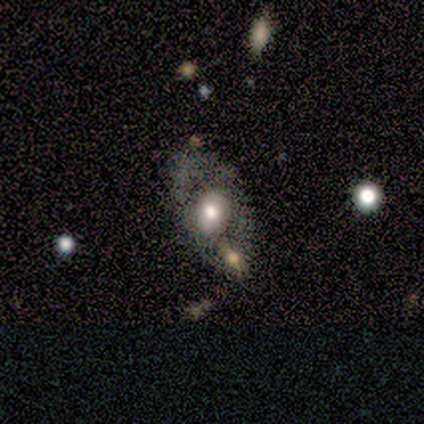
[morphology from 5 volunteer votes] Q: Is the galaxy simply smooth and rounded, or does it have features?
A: featured or disk — 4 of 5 (80%).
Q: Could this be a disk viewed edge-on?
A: no — 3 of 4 (75%).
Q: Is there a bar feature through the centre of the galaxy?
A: strong — 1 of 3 (33%, tied with weak and no).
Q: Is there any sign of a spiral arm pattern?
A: no — 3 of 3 (100%).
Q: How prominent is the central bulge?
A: large — 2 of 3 (67%).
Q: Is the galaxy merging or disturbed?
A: none — 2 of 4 (50%).